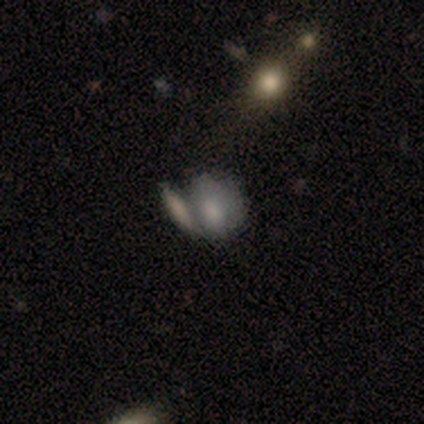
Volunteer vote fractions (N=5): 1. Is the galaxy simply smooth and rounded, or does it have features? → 40% smooth (tied), 40% featured or disk (tied), 20% star or artifact.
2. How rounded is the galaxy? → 100% in between, 0% round, 0% cigar-shaped.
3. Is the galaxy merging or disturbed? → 75% minor disturbance, 25% merger, 0% none, 0% major disturbance.